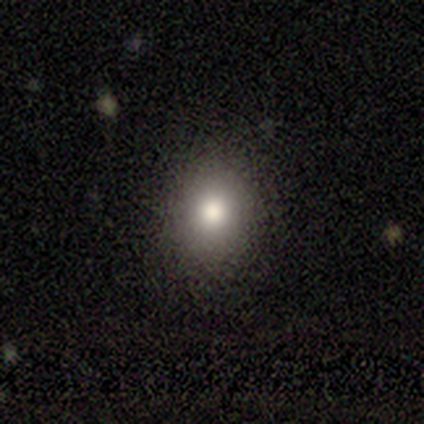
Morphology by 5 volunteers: Smooth or featured?
  - smooth: 100% *
  - featured or disk: 0%
  - star or artifact: 0%
How rounded?
  - in between: 60% *
  - round: 40%
  - cigar-shaped: 0%
Merging?
  - none: 80% *
  - minor disturbance: 20%
  - major disturbance: 0%
  - merger: 0%